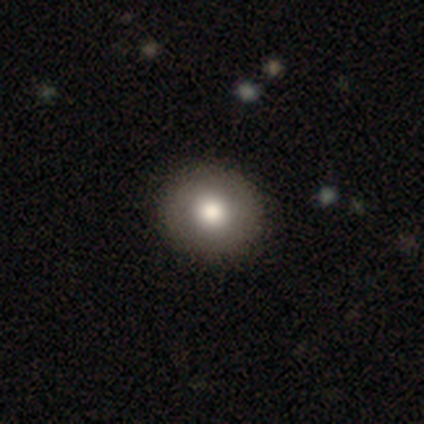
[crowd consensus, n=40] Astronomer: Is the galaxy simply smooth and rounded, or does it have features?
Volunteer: smooth — 75%.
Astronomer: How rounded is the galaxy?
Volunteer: round — 97%.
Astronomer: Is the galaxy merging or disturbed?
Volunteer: none — 68%.